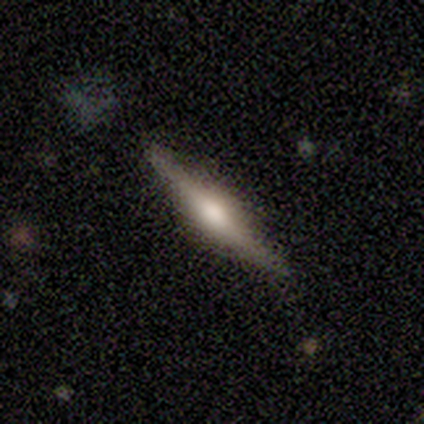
featured or disk 100%, smooth 0%, star or artifact 0%. Down the decision tree: edge-on disk — yes (100%); edge-on bulge — rounded (100%); merging — none (100%).